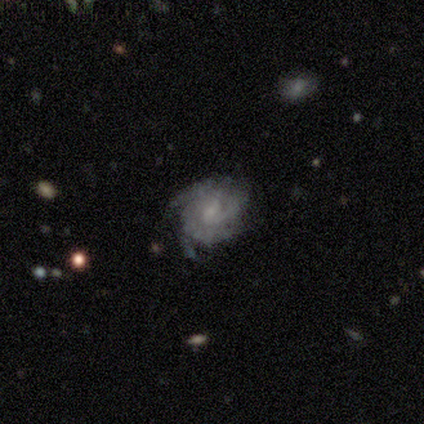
A featured or disk galaxy (75%) with no bar (67%), 3 (33%, tied with 4 and can't tell) tight (100%) spiral arms (100%) and a moderate central bulge (33%, tied with small and none). Merging: none (100%).